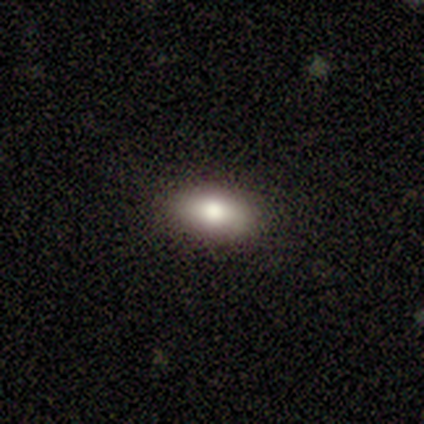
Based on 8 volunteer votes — Smooth or featured? smooth (75%)
How rounded? in between (83%)
Merging? none (83%)